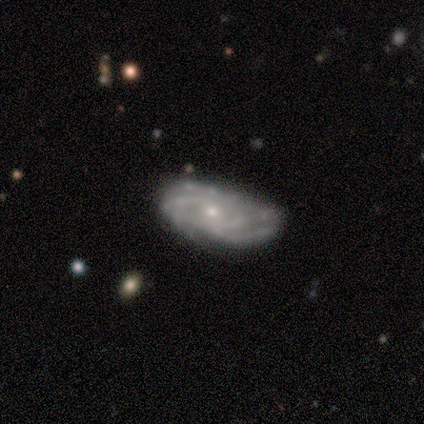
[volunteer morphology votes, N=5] type=featured or disk (80%); edge-on=no (100%); bar=no (75%); spiral arms=yes (100%); winding=tight (50%, tied with medium); arm count=2 (25%, tied with 3, 4 and can't tell); bulge=small (75%); merging=minor disturbance (60%).